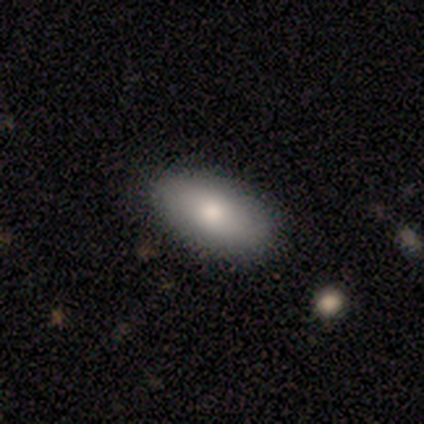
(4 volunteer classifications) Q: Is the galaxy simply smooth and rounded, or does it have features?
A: smooth — 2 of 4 (50%).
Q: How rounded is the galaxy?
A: in between — 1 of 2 (50%, tied with cigar-shaped).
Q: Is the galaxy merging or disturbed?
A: none — 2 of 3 (67%).